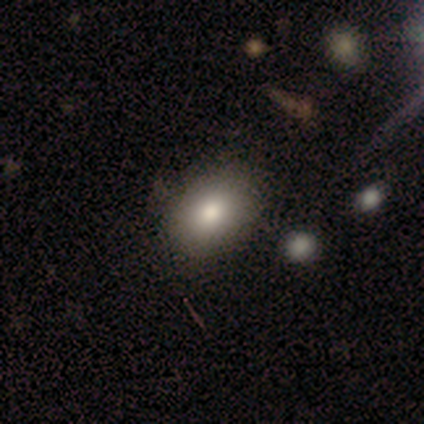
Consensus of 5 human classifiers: Morphology: type=featured or disk (60%); edge-on=no (100%); bar=no (100%); spiral arms=no (100%); bulge=dominant (33%, tied with large and small); merging=none (75%).